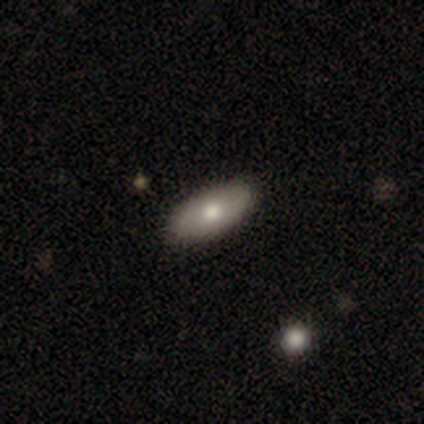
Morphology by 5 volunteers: A smooth galaxy with no disk features (80%) that is in between round and cigar-shaped (50%).

Vote fractions:
- Smooth or featured? smooth: 80% / featured or disk: 20% / star or artifact: 0%
- How rounded? in between: 50% / round: 25% / cigar-shaped: 25%
- Merging? none: 100% / minor disturbance: 0% / major disturbance: 0% / merger: 0%